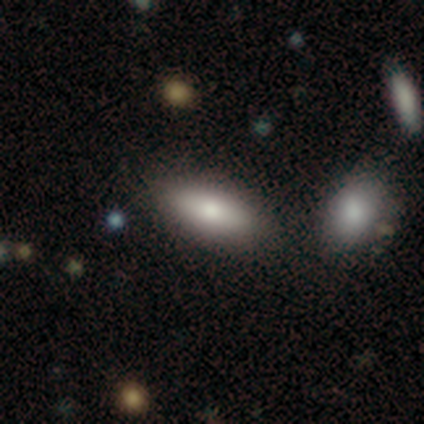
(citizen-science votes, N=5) smooth_or_featured: smooth (p=1.00)
how_rounded: in between (p=1.00)
merging: none (p=0.80) [alt: merger p=0.20]